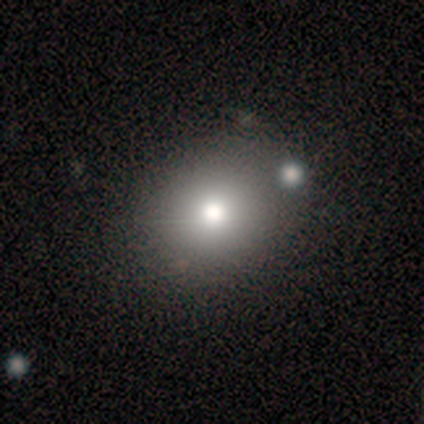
Morphology: type=smooth (75%); roundness=round (100%); merging=none (83%).